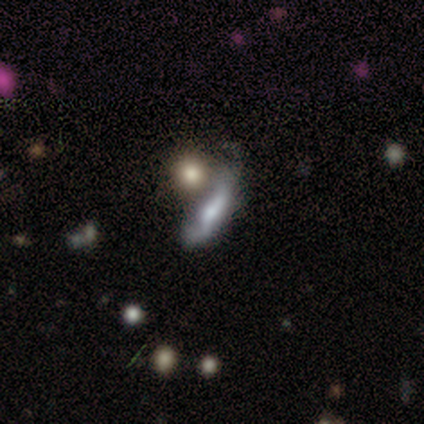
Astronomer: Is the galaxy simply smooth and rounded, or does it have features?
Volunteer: smooth — 60% (runner-up: featured or disk, 40%).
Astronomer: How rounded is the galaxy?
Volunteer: in between — 67%.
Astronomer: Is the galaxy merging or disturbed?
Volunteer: merger — 40% (runner-up: none, 20%).